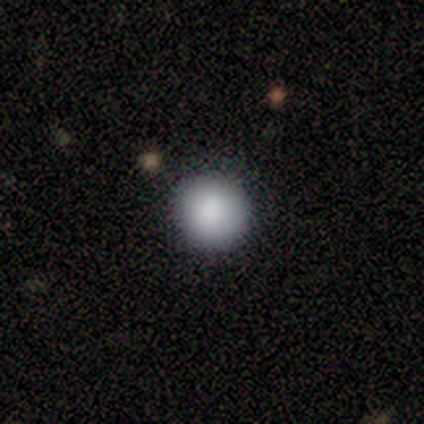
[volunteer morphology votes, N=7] This is clearly a smooth galaxy (86%). How rounded: clearly round (100%). Merging: clearly none (100%).